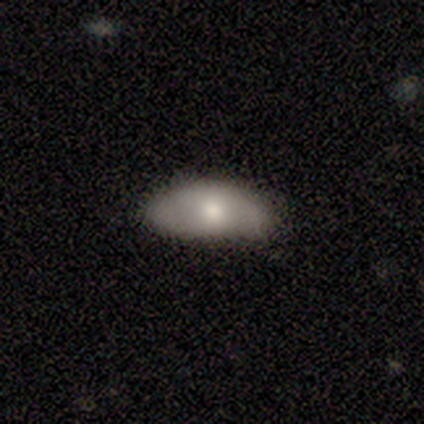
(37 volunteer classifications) smooth_or_featured: smooth (p=0.62) [alt: featured or disk p=0.30]
how_rounded: in between (p=0.91) [alt: round p=0.04]
merging: none (p=0.65) [alt: minor disturbance p=0.26]